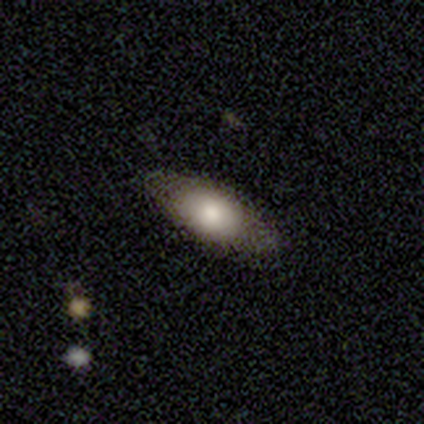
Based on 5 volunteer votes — smooth 80%, star or artifact 20%, featured or disk 0%. Down the decision tree: how rounded — in between (75%); merging — none (100%).